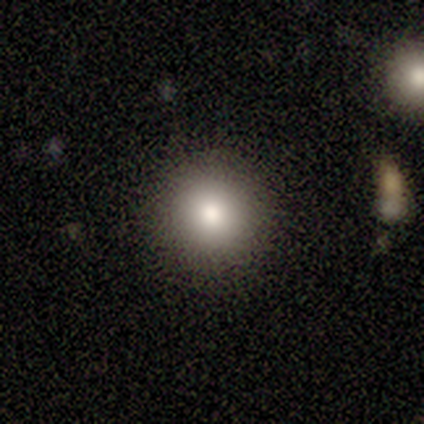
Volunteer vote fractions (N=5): Smooth or featured? smooth (60%)
How rounded? round (100%)
Merging? none (100%)